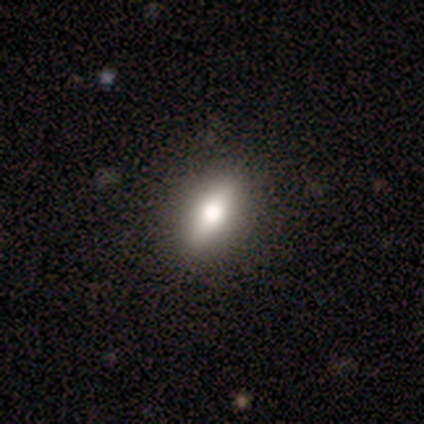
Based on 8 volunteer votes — Morphology: type=smooth (62%); roundness=in between (80%); merging=none (75%).